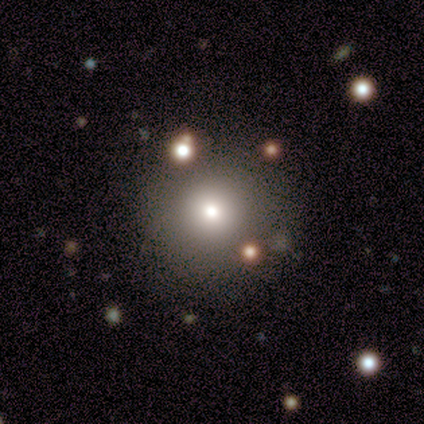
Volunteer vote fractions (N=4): smooth 75%, featured or disk 25%, star or artifact 0%. Down the decision tree: how rounded — round (100%); merging — none (100%).